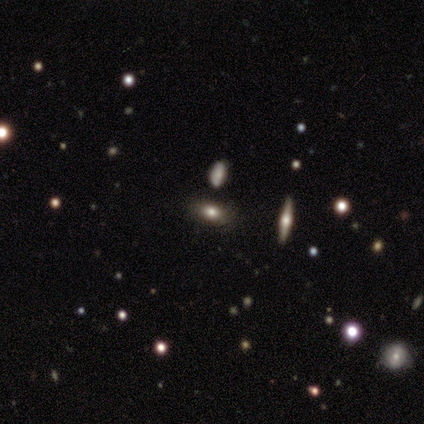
Smooth or featured? smooth (40%, tied with star or artifact)
How rounded? in between (100%)
Merging? none (100%)